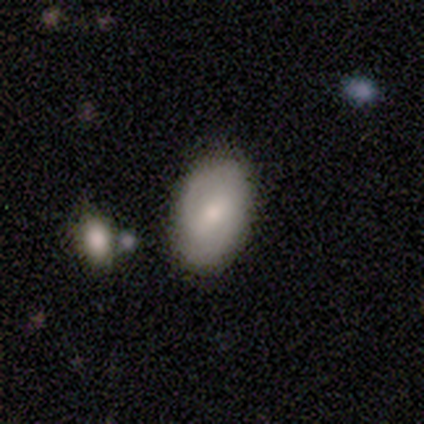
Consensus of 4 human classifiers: smooth 75%, featured or disk 25%, star or artifact 0%. Down the decision tree: how rounded — in between (100%); merging — none (50%, tied with merger).